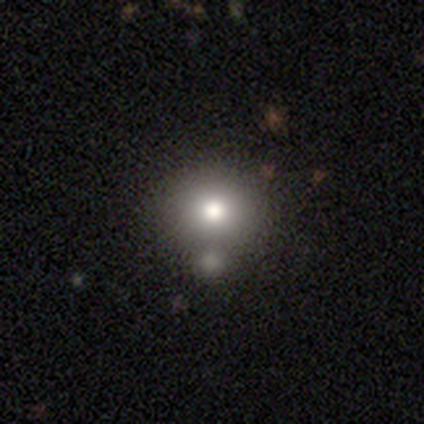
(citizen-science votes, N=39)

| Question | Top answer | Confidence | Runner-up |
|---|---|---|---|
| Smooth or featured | smooth | 77% | featured or disk (18%) |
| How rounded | round | 87% | in between (13%) |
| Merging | none | 62% | minor disturbance (22%) |